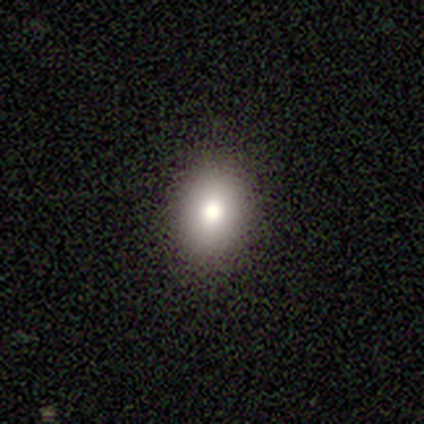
smooth_or_featured: smooth (p=0.80) [alt: featured or disk p=0.20]
how_rounded: in between (p=0.75) [alt: round p=0.25]
merging: none (p=1.00)